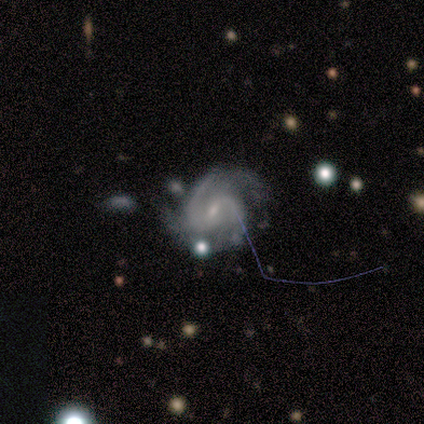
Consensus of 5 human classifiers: A featured or disk galaxy (100%) with a weak bar (80%), 2 (80%) medium (100%) spiral arms (100%) and a small central bulge (80%). Merging: none (40%).